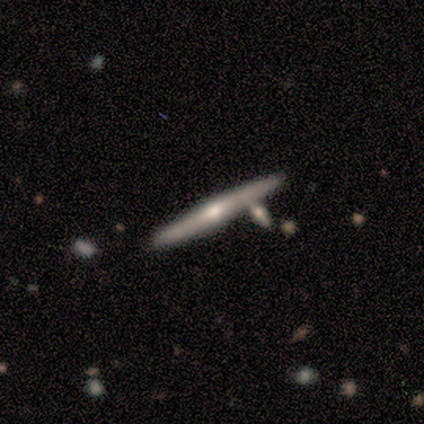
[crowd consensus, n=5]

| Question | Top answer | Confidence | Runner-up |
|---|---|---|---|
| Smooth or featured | featured or disk | 100% | — |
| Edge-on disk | yes | 80% | no (20%) |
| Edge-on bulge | rounded | 100% | — |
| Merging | none | 80% | merger (20%) |